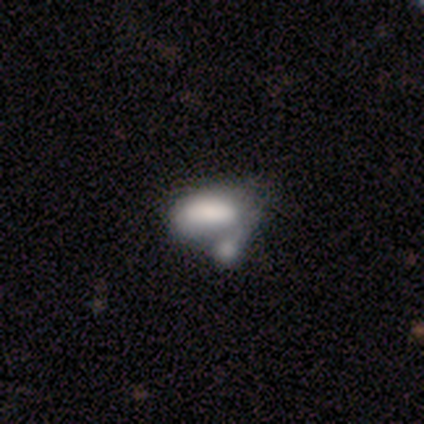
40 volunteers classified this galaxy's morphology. This appears to be a smooth galaxy with no disk features (70%) that is in between round and cigar-shaped (89%). Merging: merger (71%).